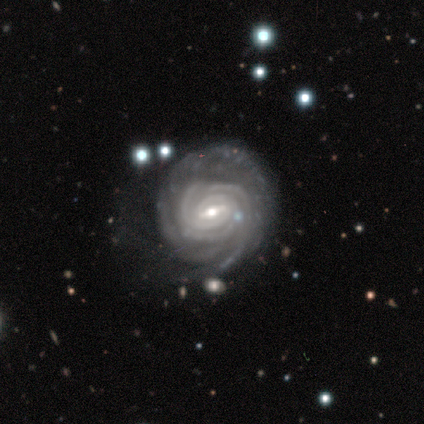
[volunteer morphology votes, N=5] Smooth or featured?
  - featured or disk: 100% *
  - smooth: 0%
  - star or artifact: 0%
Edge-on disk?
  - no: 100% *
  - yes: 0%
Bar?
  - weak: 60% *
  - strong: 20%
  - no: 20%
Spiral arms?
  - yes: 100% *
  - no: 0%
Spiral winding?
  - tight: 100% *
  - medium: 0%
  - loose: 0%
Spiral arm count?
  - can't tell: 40% *
  - 3: 20%
  - 4: 20%
  - more than 4: 20%
  - 1: 0%
  - 2: 0%
Bulge size?
  - moderate: 60% *
  - small: 40%
  - dominant: 0%
  - large: 0%
  - none: 0%
Merging?
  - none: 80% *
  - minor disturbance: 20%
  - major disturbance: 0%
  - merger: 0%